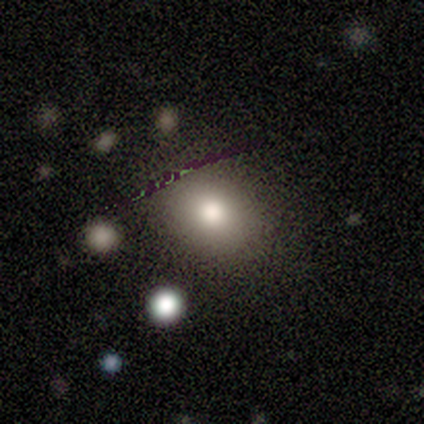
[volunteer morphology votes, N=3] featured or disk 67%, star or artifact 33%, smooth 0%. Down the decision tree: edge-on disk — no (100%); bar — no (100%); spiral arms — no (100%); bulge size — dominant (50%, tied with large); merging — none (100%).